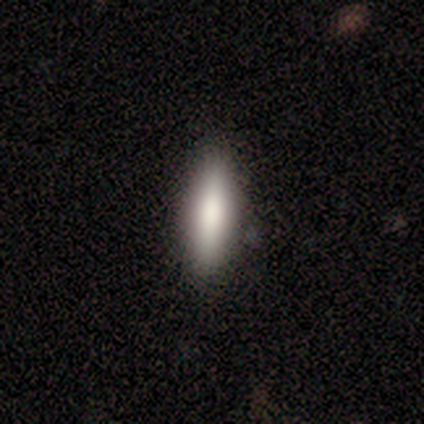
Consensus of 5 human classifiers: A smooth galaxy with no disk features (80%) that is in between round and cigar-shaped (75%). Merging: none (80%).